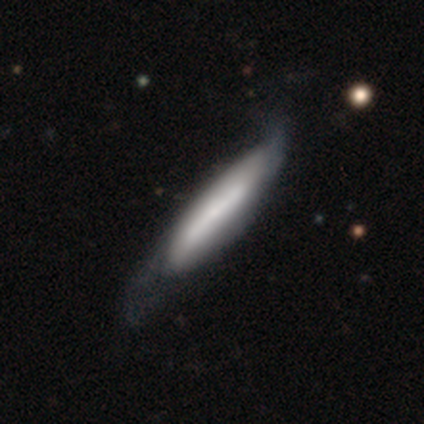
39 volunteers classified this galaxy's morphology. type=smooth (56%); roundness=cigar-shaped (86%); merging=none (23%).